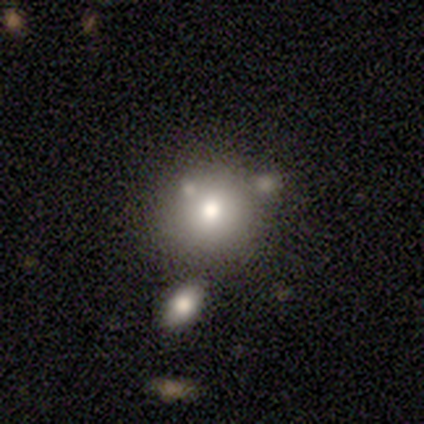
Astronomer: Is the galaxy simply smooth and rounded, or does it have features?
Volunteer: smooth — 83%.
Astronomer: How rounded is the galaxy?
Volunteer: round — 87%.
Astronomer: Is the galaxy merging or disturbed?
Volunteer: none — 61%.